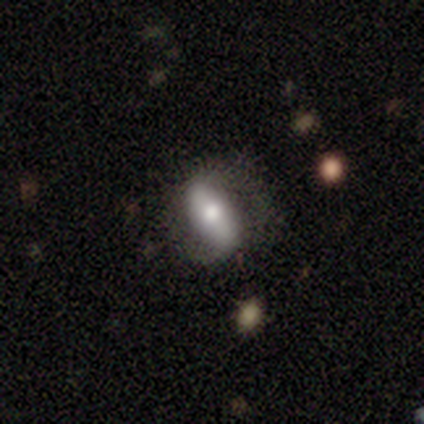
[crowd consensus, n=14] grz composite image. It shows a featured or disk galaxy (50%) with a strong bar (83%), 2 (100%) loose (60%) spiral arms (83%) and a moderate central bulge (50%). Merging: none (77%).